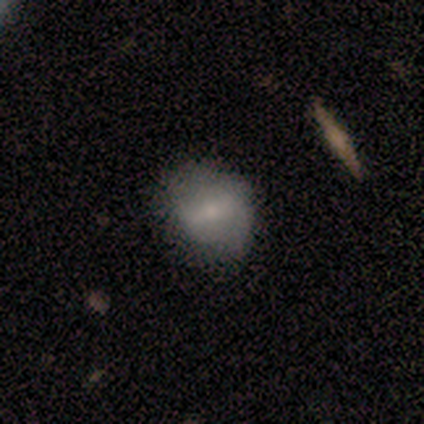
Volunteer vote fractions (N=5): smooth-or-featured: smooth: 80% | featured or disk: 20% | star or artifact: 0%
  how-rounded: in between: 75% | round: 25% | cigar-shaped: 0%
  merging: minor disturbance: 60% | none: 40% | major disturbance: 0% | merger: 0%